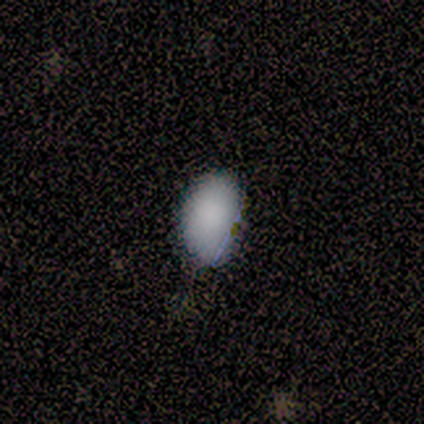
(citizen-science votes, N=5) Volunteers were most divided on "merging": none: 60%, minor disturbance: 40%, major disturbance: 0%, merger: 0%. More confident: smooth or featured — smooth (100%); how rounded — in between (80%).